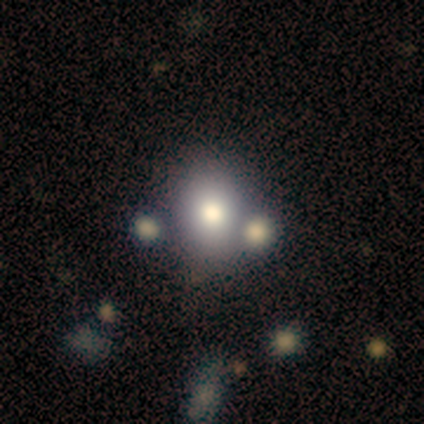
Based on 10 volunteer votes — smooth 70%, featured or disk 30%, star or artifact 0%. Down the decision tree: how rounded — in between (57%); merging — none (70%).